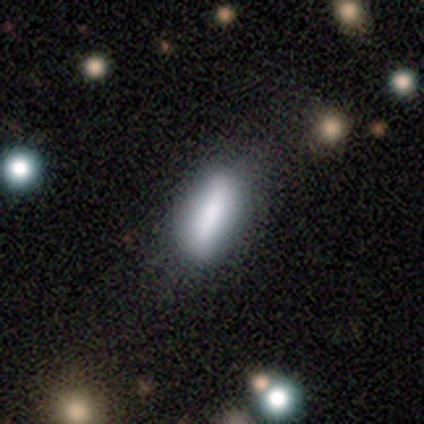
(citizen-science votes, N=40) Smooth or featured? 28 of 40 (70%) said smooth. How rounded? 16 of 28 (57%) said in between. Merging? 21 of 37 (57%) said none.